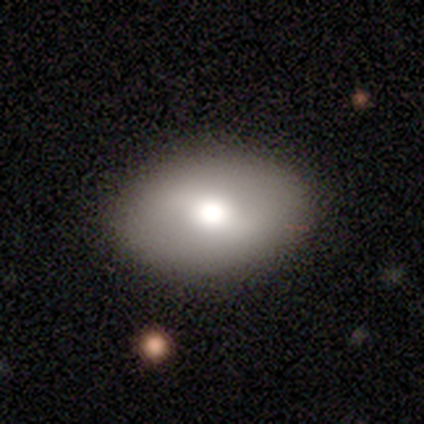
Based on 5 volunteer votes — Overall: smooth (80%). How rounded: in between (100%). Merging: none (80%).